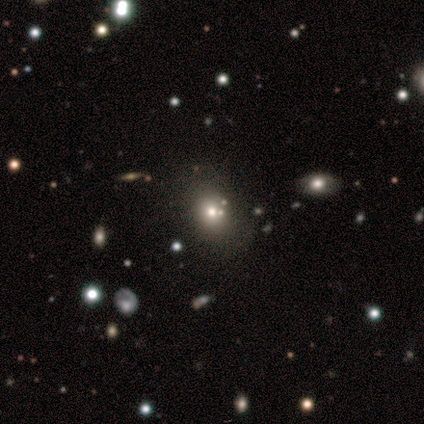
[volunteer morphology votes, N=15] Smooth or featured? 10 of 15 (67%) said smooth. How rounded? 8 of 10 (80%) said in between. Merging? 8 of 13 (62%) said none.